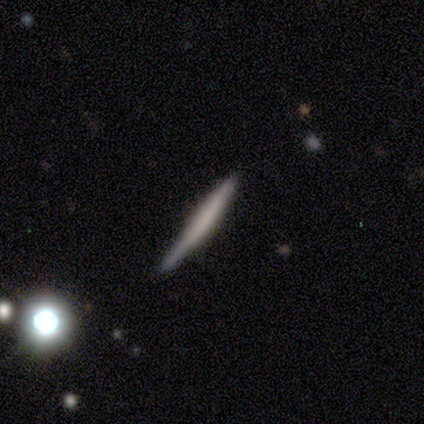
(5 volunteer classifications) Smooth or featured? 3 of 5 (60%) said smooth. How rounded? 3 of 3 (100%) said cigar-shaped. Merging? 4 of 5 (80%) said none.